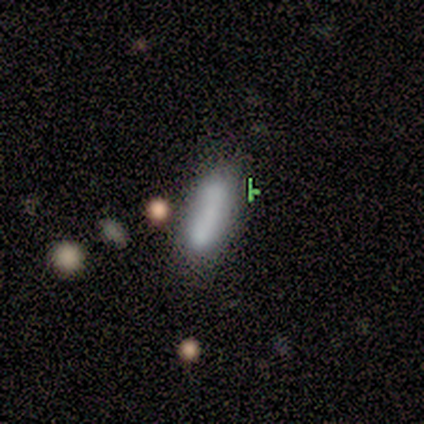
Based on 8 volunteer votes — featured or disk 62%, smooth 25%, star or artifact 12%. Down the decision tree: edge-on disk — no (100%); bar — no (60%); spiral arms — no (100%); bulge size — none (60%); merging — none (43%, tied with minor disturbance).